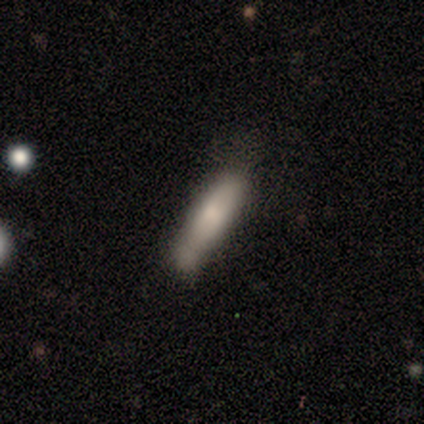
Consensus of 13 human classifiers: A smooth galaxy with no disk features (77%) that is cigar-shaped (80%). Merging: none (54%).